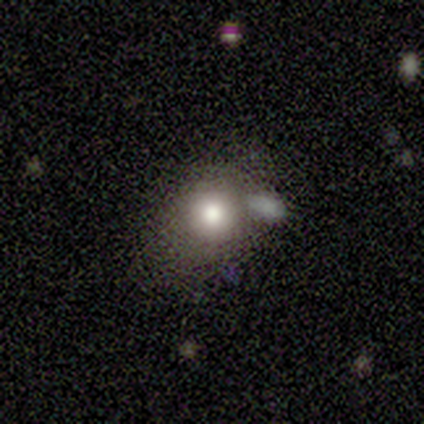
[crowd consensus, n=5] A smooth galaxy with no disk features (80%) that is round (75%). Merging: minor disturbance (40%, tied with merger).